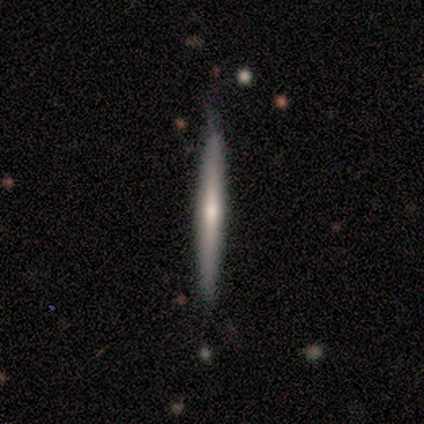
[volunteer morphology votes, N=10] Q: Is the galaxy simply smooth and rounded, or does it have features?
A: smooth — 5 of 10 (50%).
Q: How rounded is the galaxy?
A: cigar-shaped — 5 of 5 (100%).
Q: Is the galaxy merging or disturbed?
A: none — 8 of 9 (89%).